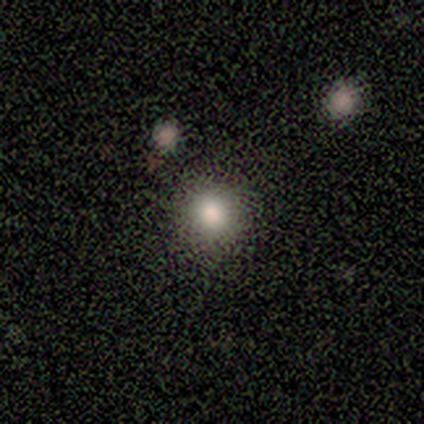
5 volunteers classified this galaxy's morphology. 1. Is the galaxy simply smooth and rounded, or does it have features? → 100% smooth, 0% featured or disk, 0% star or artifact.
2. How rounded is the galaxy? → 100% round, 0% in between, 0% cigar-shaped.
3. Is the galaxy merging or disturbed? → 60% none, 40% minor disturbance, 0% major disturbance, 0% merger.